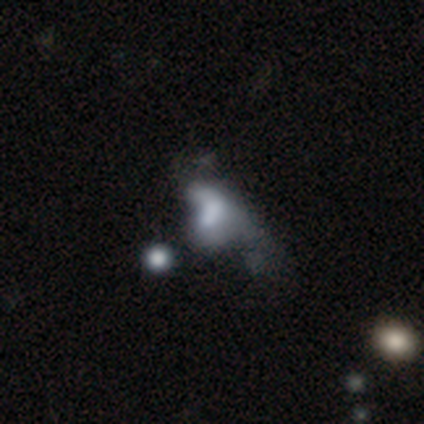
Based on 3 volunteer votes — Overall: smooth (67%; featured or disk 33%). How rounded: round (50%, tied with in between). Merging: merger (67%; minor disturbance 33%).